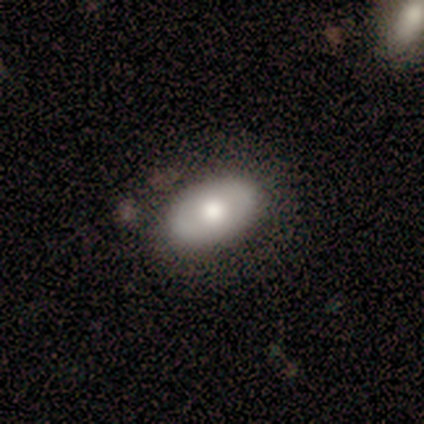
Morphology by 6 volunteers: Volunteers were most divided on "smooth or featured" (2-way tie): smooth: 50%, featured or disk: 50%, star or artifact: 0%. More confident: how rounded — in between (100%); merging — none (100%).